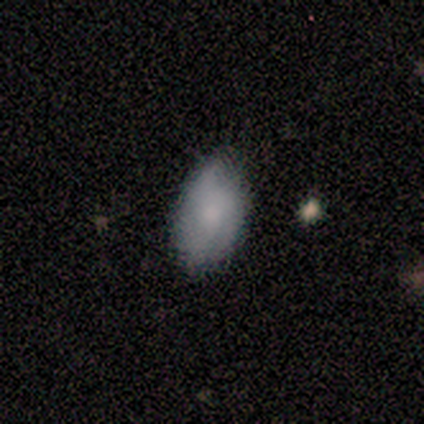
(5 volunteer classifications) Smooth or featured? smooth (80%)
How rounded? in between (100%)
Merging? none (80%)